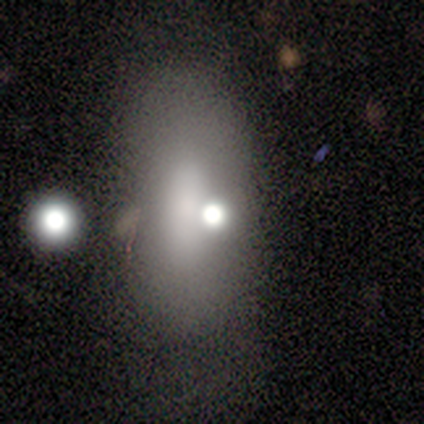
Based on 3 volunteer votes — Smooth or featured: featured or disk — 67% (smooth — 33%)
Edge-on disk: no — 100%
Bar: weak — 50% (tied with no — 50%)
Spiral arms: no — 100%
Bulge size: large — 50% (tied with small — 50%)
Merging: minor disturbance — 67% (none — 33%)